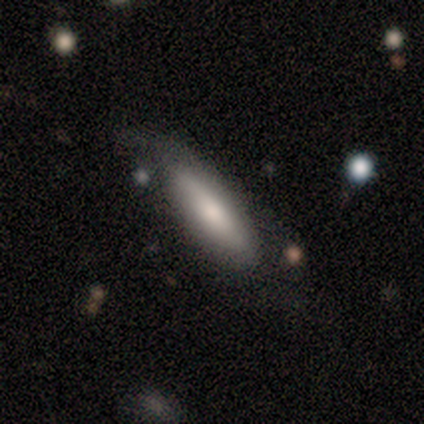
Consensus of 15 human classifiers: Smooth or featured: smooth — 60% (featured or disk — 40%)
How rounded: cigar-shaped — 67% (in between — 33%)
Merging: minor disturbance — 53% (none — 40%)